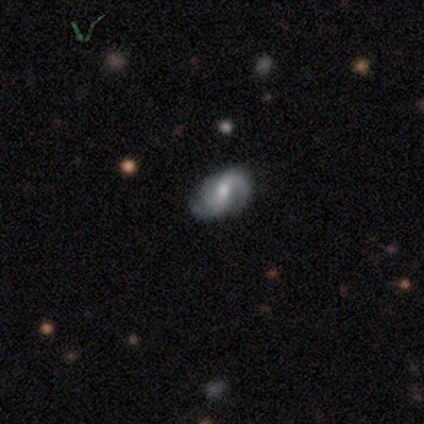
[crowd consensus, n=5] Smooth or featured?
  - featured or disk: 80% *
  - smooth: 20%
  - star or artifact: 0%
Edge-on disk?
  - no: 75% *
  - yes: 25%
Bar?
  - strong: 33% * (tied)
  - weak: 33% * (tied)
  - no: 33% * (tied)
Spiral arms?
  - yes: 100% *
  - no: 0%
Spiral winding?
  - loose: 67% *
  - medium: 33%
  - tight: 0%
Spiral arm count?
  - 2: 67% *
  - can't tell: 33%
  - 1: 0%
  - 3: 0%
  - 4: 0%
  - more than 4: 0%
Bulge size?
  - moderate: 100% *
  - dominant: 0%
  - large: 0%
  - small: 0%
  - none: 0%
Merging?
  - none: 40% * (tied)
  - minor disturbance: 40% * (tied)
  - merger: 20%
  - major disturbance: 0%